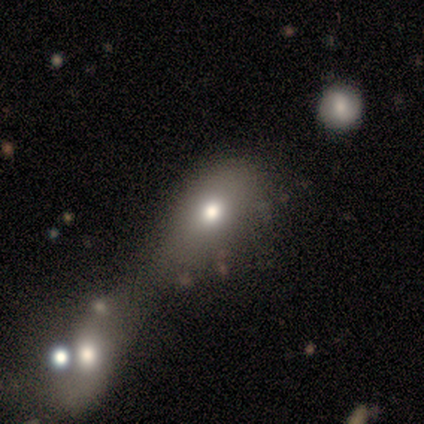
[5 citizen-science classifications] smooth_or_featured: smooth (p=0.60) [alt: featured or disk p=0.40]
how_rounded: in between (p=1.00)
merging: merger (p=0.60) [alt: none p=0.20]